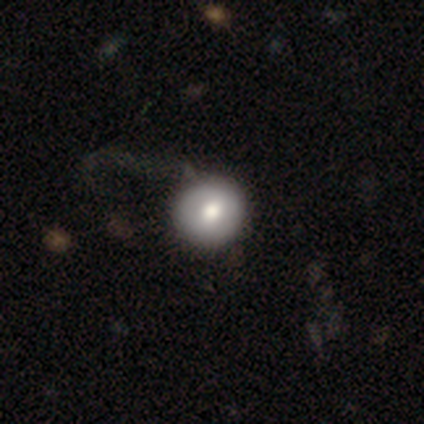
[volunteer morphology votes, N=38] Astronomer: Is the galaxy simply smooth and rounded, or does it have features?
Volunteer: smooth — 79%.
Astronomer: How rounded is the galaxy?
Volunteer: round — 93%.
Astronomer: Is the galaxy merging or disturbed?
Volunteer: none — 46%.